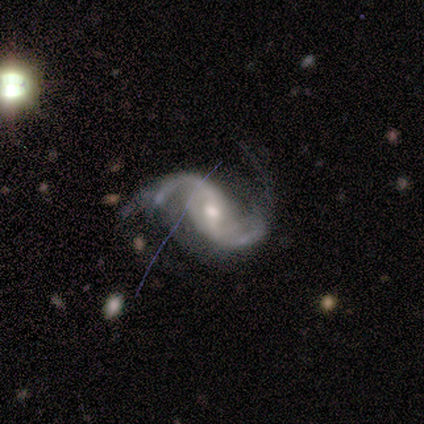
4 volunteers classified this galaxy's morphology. smooth-or-featured: featured or disk: 75% | star or artifact: 25% | smooth: 0%
  disk-edge-on: no: 100% | yes: 0%
    bar: strong: 33% (tied) | weak: 33% (tied) | no: 33% (tied)
    has-spiral-arms: yes: 100% | no: 0%
      spiral-winding: medium: 67% | loose: 33% | tight: 0%
      spiral-arm-count: 2: 100% | 1: 0% | 3: 0% | 4: 0% | more than 4: 0% | can't tell: 0%
    bulge-size: moderate: 67% | small: 33% | dominant: 0% | large: 0% | none: 0%
  merging: none: 67% | minor disturbance: 33% | major disturbance: 0% | merger: 0%